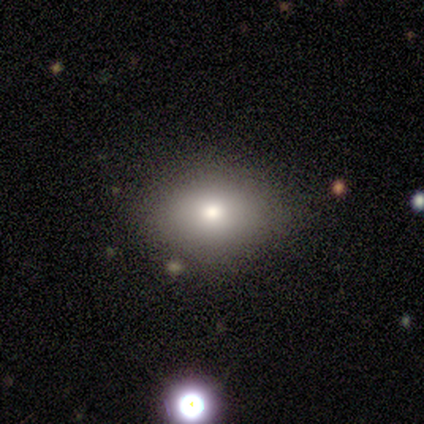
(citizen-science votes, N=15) Q: Smooth or featured?
A: smooth (67%); runner-up: featured or disk (27%)
Q: How rounded?
A: in between (80%); runner-up: round (20%)
Q: Merging?
A: none (71%); runner-up: minor disturbance (21%)